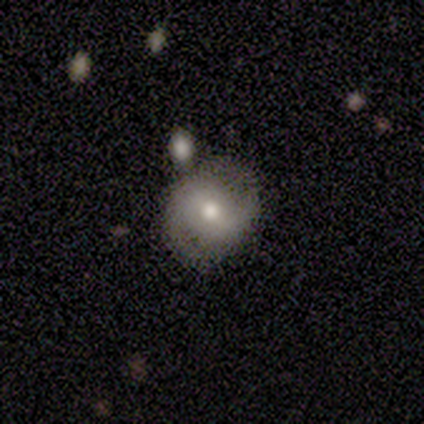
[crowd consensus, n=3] smooth_or_featured: smooth (p=0.67) [alt: star or artifact p=0.33]
how_rounded: round (p=0.50) [tied with: in between p=0.50]
merging: none (p=0.50) [tied with: minor disturbance p=0.50]